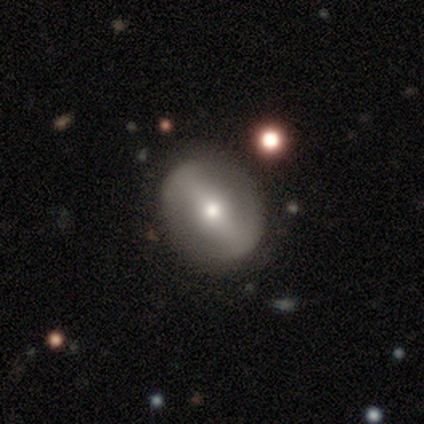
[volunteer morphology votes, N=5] type=featured or disk (40%, tied with star or artifact); edge-on=no (100%); bar=strong (50%, tied with weak); spiral arms=yes (50%, tied with no); winding=loose (100%); arm count=2 (100%); bulge=moderate (100%); merging=none (67%).